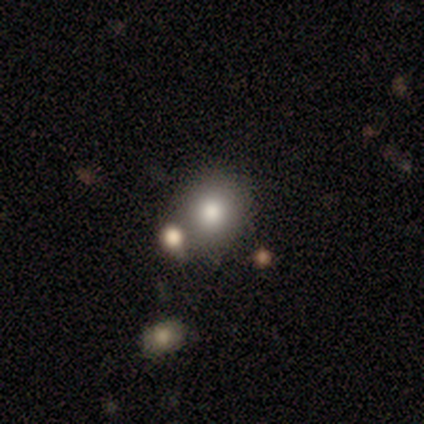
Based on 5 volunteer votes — Smooth or featured?
  - smooth: 100% *
  - featured or disk: 0%
  - star or artifact: 0%
How rounded?
  - round: 80% *
  - in between: 20%
  - cigar-shaped: 0%
Merging?
  - none: 60% *
  - merger: 40%
  - minor disturbance: 0%
  - major disturbance: 0%